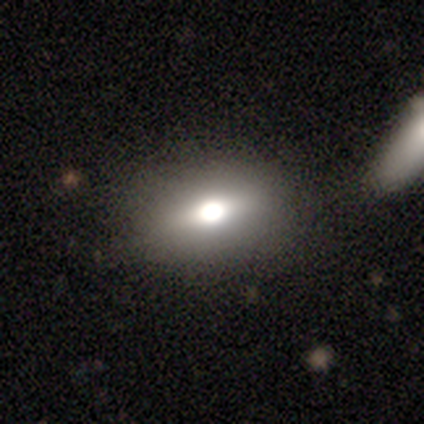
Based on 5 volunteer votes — Smooth or featured: smooth — 80% (featured or disk — 20%)
How rounded: in between — 75% (cigar-shaped — 25%)
Merging: none — 100%